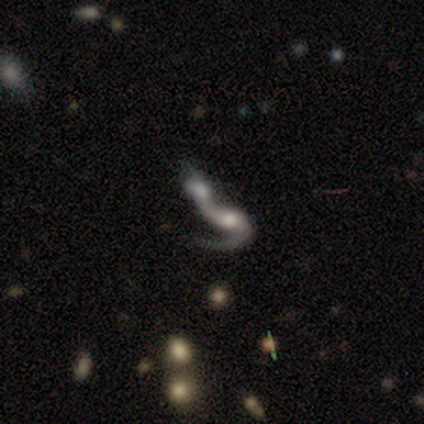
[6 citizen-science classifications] Volunteers were most divided on "spiral winding" (2-way tie): medium: 50%, loose: 50%, tight: 0%. More confident: smooth or featured — featured or disk (100%); edge-on disk — no (100%); spiral arms — yes (100%); merging — merger (100%); bar — no (67%); bulge size — moderate (67%); spiral arm count — 1 (50%).